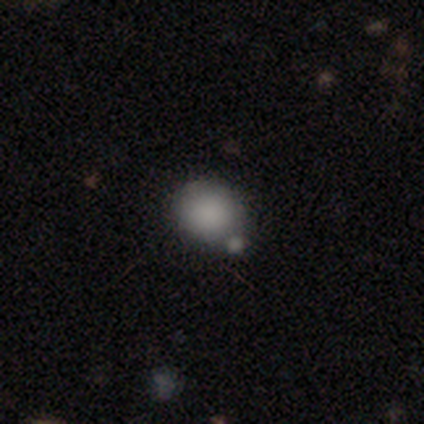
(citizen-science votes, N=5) A smooth galaxy with no disk features (100%) that is in between round and cigar-shaped (60%).

Vote fractions:
- Smooth or featured? smooth: 100% / featured or disk: 0% / star or artifact: 0%
- How rounded? in between: 60% / round: 40% / cigar-shaped: 0%
- Merging? merger: 80% / none: 20% / minor disturbance: 0% / major disturbance: 0%